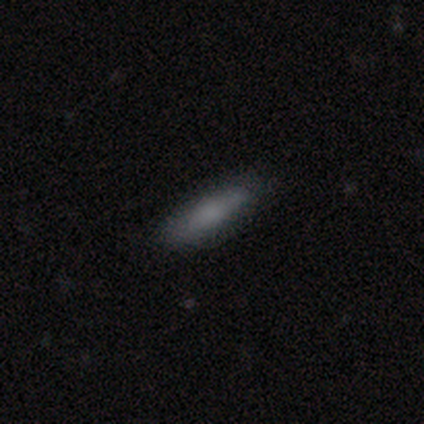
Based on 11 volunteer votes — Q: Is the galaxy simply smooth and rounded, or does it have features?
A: smooth — 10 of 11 (91%).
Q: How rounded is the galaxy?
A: in between — 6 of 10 (60%).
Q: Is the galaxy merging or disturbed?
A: none — 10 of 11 (91%).